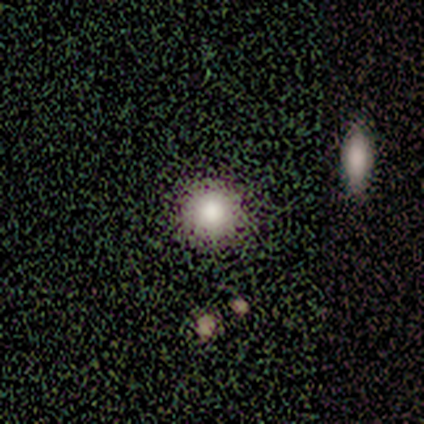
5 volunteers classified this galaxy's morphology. This is likely a smooth galaxy (60%). How rounded: clearly round (100%). Merging: clearly none (100%).